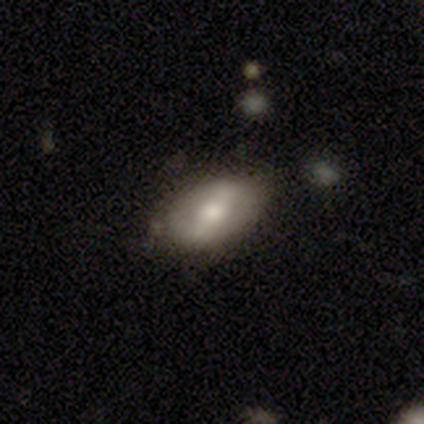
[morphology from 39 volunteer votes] smooth_or_featured: smooth (p=0.49) [alt: featured or disk p=0.46]
how_rounded: in between (p=0.84) [alt: round p=0.16]
merging: none (p=0.68) [alt: minor disturbance p=0.24]